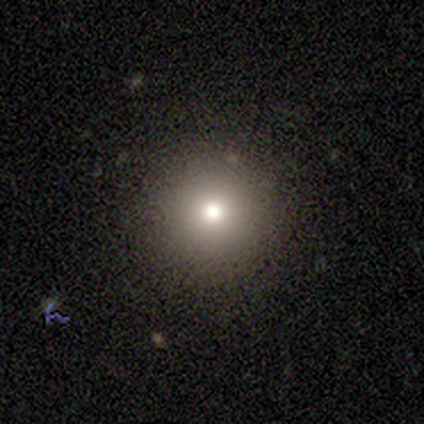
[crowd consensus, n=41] A smooth galaxy with no disk features (78%) that is round (94%). Merging: none (89%).